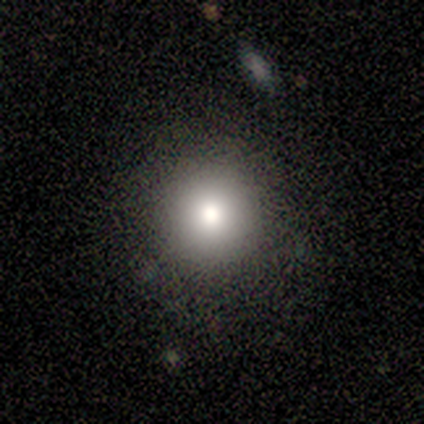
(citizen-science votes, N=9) This is clearly a smooth galaxy (89%). How rounded: clearly round (88%). Merging: likely none (67%).